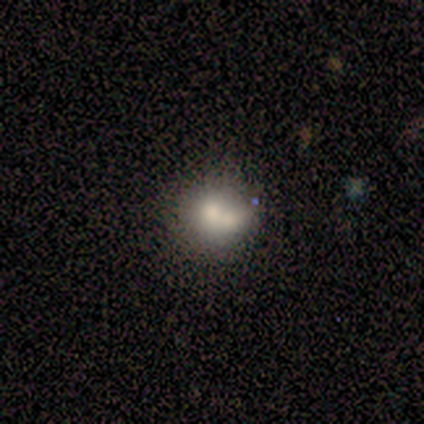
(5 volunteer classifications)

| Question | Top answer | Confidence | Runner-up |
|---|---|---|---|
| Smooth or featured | smooth | 80% | featured or disk (20%) |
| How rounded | round | 75% | in between (25%) |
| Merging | none | 40% | tied: merger (40%) |